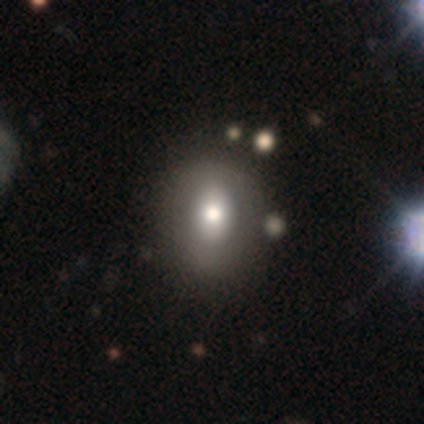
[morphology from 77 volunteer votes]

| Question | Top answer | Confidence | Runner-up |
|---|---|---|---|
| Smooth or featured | smooth | 64% | featured or disk (29%) |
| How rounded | in between | 59% | round (41%) |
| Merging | none | 42% | merger (7%) |